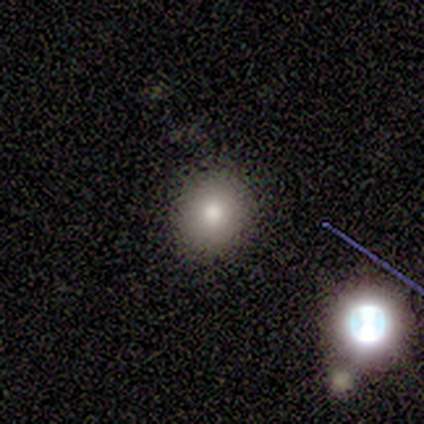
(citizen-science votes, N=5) smooth-or-featured: smooth: 60% | featured or disk: 20% | star or artifact: 20%
  how-rounded: round: 67% | in between: 33% | cigar-shaped: 0%
  merging: none: 100% | minor disturbance: 0% | major disturbance: 0% | merger: 0%